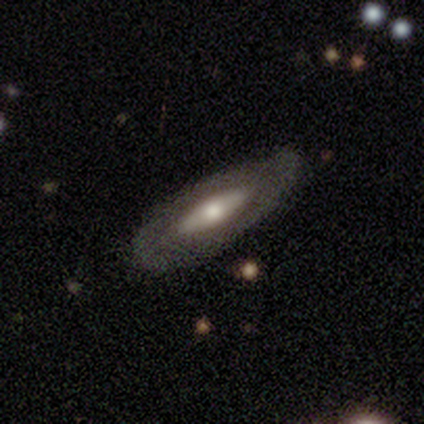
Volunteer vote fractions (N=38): This is likely a featured or disk galaxy (68%). It is clearly not viewed edge-on (85%). Bar: likely no (64%). Spiral arm pattern: clearly no (82%). Central bulge: possibly moderate (59%). Merging: likely none (65%).